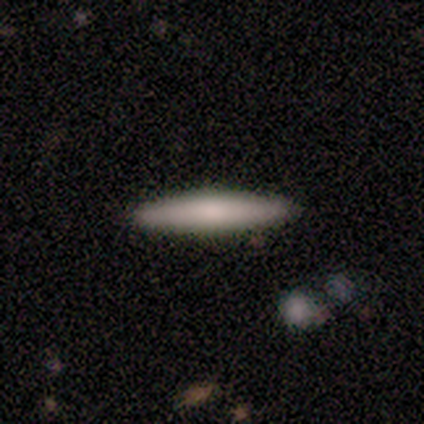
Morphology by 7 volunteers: A smooth galaxy with no disk features (57%) that is cigar-shaped (100%). Merging: none (100%).